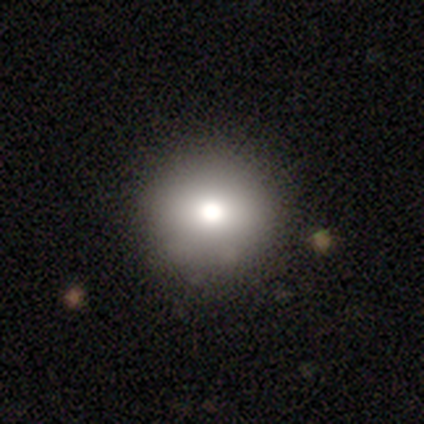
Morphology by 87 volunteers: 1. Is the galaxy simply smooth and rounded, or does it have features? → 80% smooth, 13% star or artifact, 7% featured or disk.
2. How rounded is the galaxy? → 97% round, 3% in between, 0% cigar-shaped.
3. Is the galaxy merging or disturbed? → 87% none, 11% minor disturbance, 3% major disturbance, 0% merger.